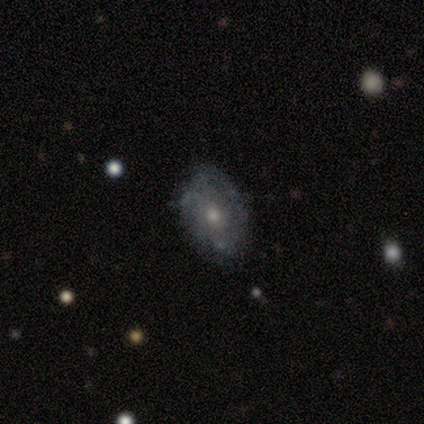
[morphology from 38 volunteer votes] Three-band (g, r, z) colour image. It shows a featured or disk galaxy (47%) with no bar (93%), no spiral arms (80%) and a small central bulge (53%). Merging: none (65%).